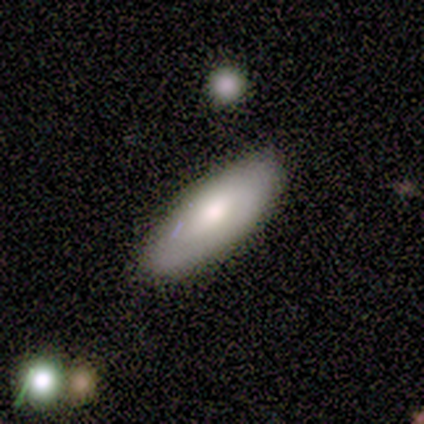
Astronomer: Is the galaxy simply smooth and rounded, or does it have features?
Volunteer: smooth — 71%.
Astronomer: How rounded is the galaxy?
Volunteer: cigar-shaped — 60% (runner-up: in between, 40%).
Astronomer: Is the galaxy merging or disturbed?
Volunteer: none — 100%.